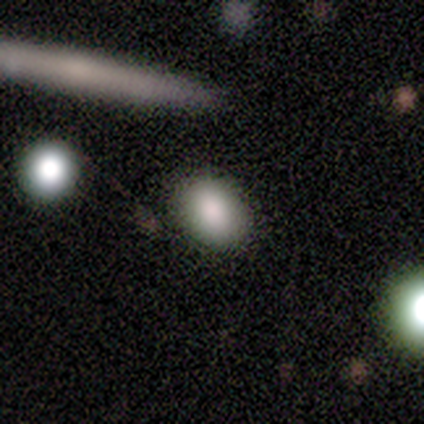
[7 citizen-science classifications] This is clearly a smooth galaxy (100%). How rounded: clearly in between (86%). Merging: clearly none (86%).